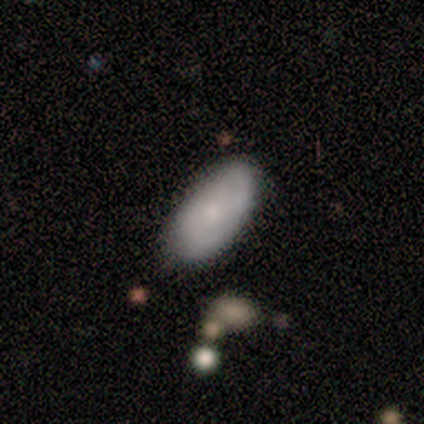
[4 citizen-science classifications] Smooth or featured?
  - smooth: 50% * (tied)
  - featured or disk: 50% * (tied)
  - star or artifact: 0%
How rounded?
  - in between: 100% *
  - round: 0%
  - cigar-shaped: 0%
Merging?
  - none: 100% *
  - minor disturbance: 0%
  - major disturbance: 0%
  - merger: 0%